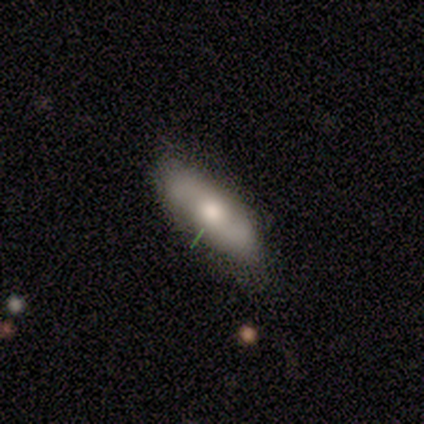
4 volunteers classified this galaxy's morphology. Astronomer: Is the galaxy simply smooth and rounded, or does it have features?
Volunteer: smooth — 50%, tied with featured or disk at 50%.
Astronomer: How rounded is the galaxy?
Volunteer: in between — 100%.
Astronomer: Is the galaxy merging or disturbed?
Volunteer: none — 75%.